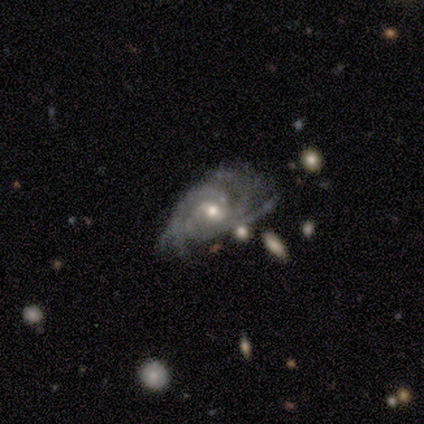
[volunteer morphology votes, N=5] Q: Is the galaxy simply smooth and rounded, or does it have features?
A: featured or disk — 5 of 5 (100%).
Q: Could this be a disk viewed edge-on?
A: no — 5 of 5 (100%).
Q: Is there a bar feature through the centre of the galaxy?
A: no — 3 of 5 (60%).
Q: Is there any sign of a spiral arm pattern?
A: yes — 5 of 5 (100%).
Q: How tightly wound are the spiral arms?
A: tight — 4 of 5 (80%).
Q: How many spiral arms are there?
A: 3 — 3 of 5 (60%).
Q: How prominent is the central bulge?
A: small — 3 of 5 (60%).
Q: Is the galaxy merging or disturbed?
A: minor disturbance — 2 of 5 (40%, tied with major disturbance).